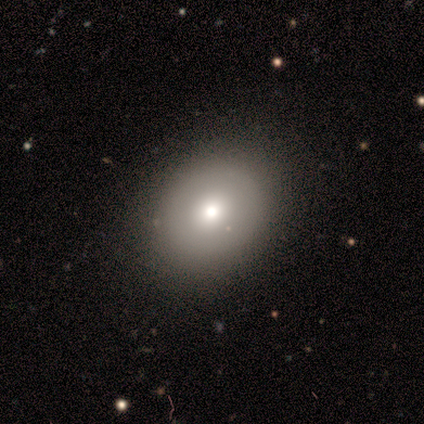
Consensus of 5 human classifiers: Morphology: type=smooth (80%); roundness=round (50%, tied with in between); merging=none (100%).